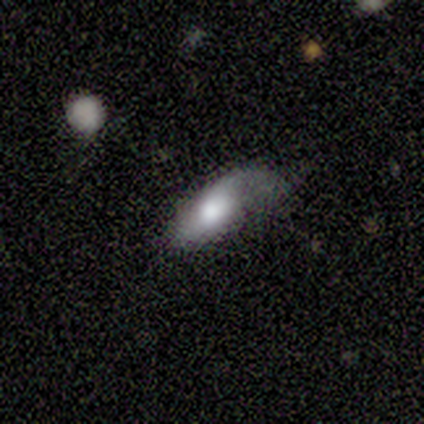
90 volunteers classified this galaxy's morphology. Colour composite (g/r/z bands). It shows a featured or disk galaxy (53%) with no bar (86%), 1 (48%, tied with 2) loose (79%) spiral arms (66%) and a large central bulge (59%). Merging: none (34%).